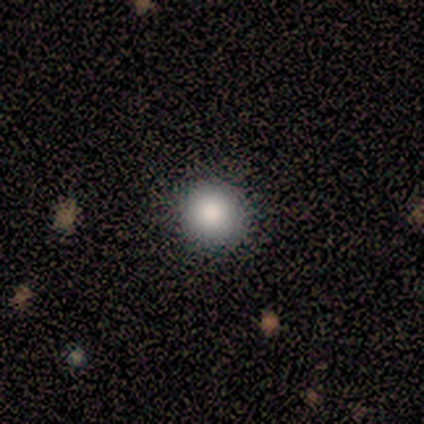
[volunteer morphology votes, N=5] smooth_or_featured: smooth (p=1.00)
how_rounded: round (p=1.00)
merging: none (p=0.60) [alt: minor disturbance p=0.40]